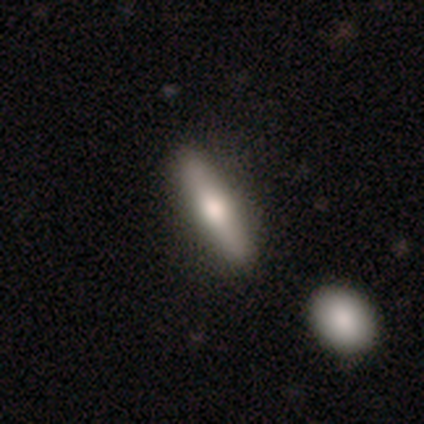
A smooth galaxy with no disk features (40%, tied with featured or disk) that is cigar-shaped (100%). Merging: none (100%).